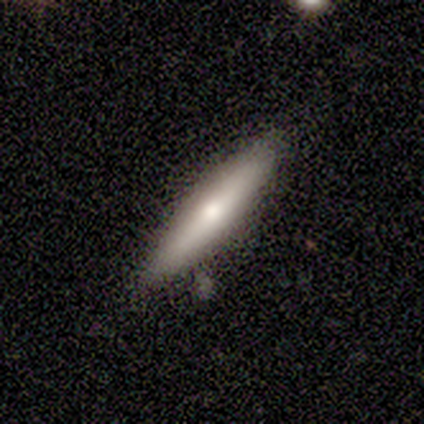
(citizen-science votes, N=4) Smooth or featured: smooth — 75% (featured or disk — 25%)
How rounded: cigar-shaped — 100%
Merging: none — 75% (minor disturbance — 25%)